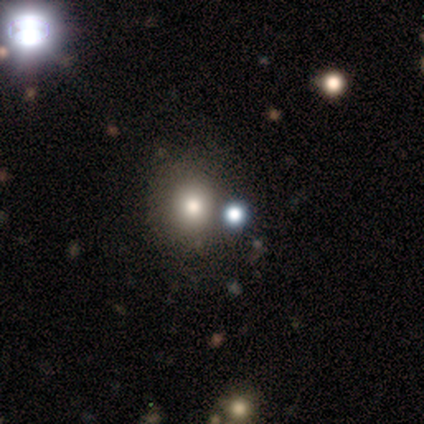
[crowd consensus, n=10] Smooth or featured: smooth — 60% (star or artifact — 40%)
How rounded: round — 83% (in between — 17%)
Merging: none — 67% (minor disturbance — 17%)